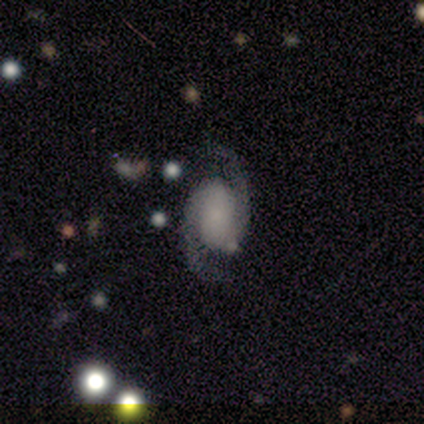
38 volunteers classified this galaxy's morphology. Smooth or featured?
  - featured or disk: 87% *
  - star or artifact: 8%
  - smooth: 5%
Edge-on disk?
  - no: 100% *
  - yes: 0%
Bar?
  - no: 67% *
  - weak: 18%
  - strong: 15%
Spiral arms?
  - yes: 94% *
  - no: 6%
Spiral winding?
  - medium: 52% *
  - tight: 29%
  - loose: 19%
Spiral arm count?
  - 2: 97% *
  - can't tell: 3%
  - 1: 0%
  - 3: 0%
  - 4: 0%
  - more than 4: 0%
Bulge size?
  - none: 58% *
  - small: 33%
  - moderate: 6%
  - dominant: 3%
  - large: 0%
Merging?
  - none: 63% *
  - minor disturbance: 9%
  - major disturbance: 6%
  - merger: 6%